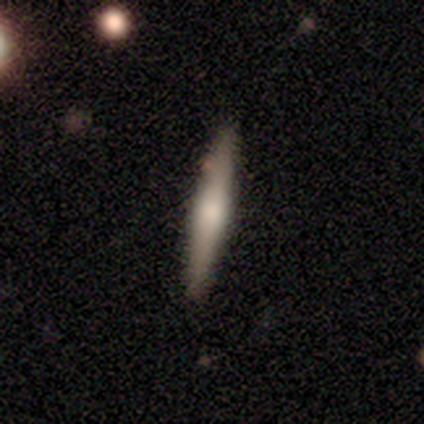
Morphology: type=smooth (80%); roundness=cigar-shaped (100%); merging=none (100%).